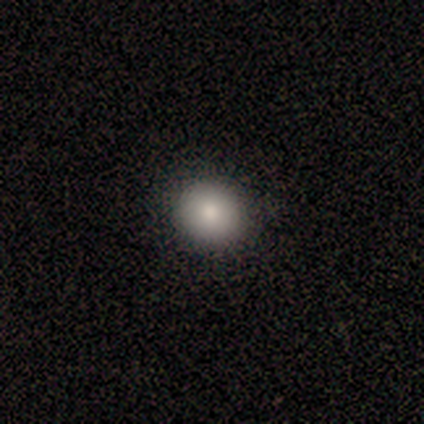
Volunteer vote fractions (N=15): Smooth or featured: smooth — 100%
How rounded: round — 100%
Merging: none — 87% (minor disturbance — 13%)